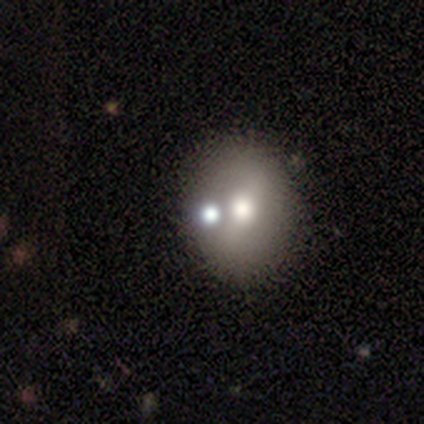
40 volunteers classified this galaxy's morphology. Smooth or featured? 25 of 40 (62%) said smooth. How rounded? 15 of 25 (60%) said in between. Merging? 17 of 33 (52%) said none.